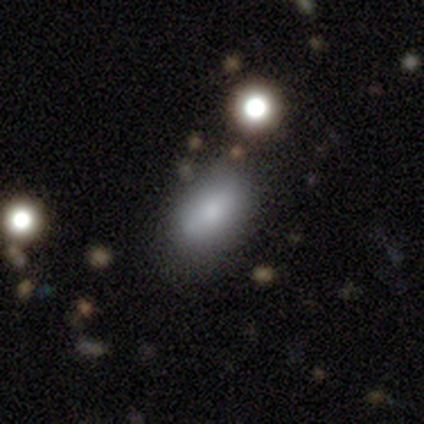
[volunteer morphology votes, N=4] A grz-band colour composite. It shows a smooth galaxy with no disk features (75%) that is in between round and cigar-shaped (100%). Merging: none (100%).